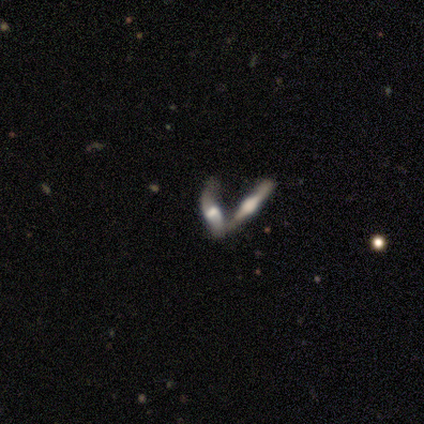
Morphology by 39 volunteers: A featured or disk galaxy (72%) viewed edge-on (64%) with a rounded central bulge (94%).

Vote fractions:
- Smooth or featured? featured or disk: 72% / star or artifact: 15% / smooth: 13%
- Edge-on disk? yes: 64% / no: 36%
- Edge-on bulge? rounded: 94% / boxy: 6% / none: 0%
- Merging? merger: 79% / none: 12% / minor disturbance: 9% / major disturbance: 0%